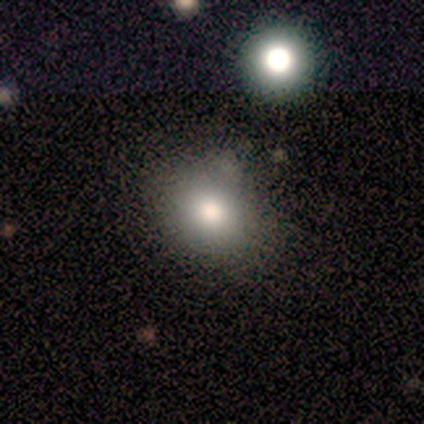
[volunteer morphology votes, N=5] smooth-or-featured: smooth: 80% | featured or disk: 20% | star or artifact: 0%
  how-rounded: round: 75% | in between: 25% | cigar-shaped: 0%
  merging: none: 100% | minor disturbance: 0% | major disturbance: 0% | merger: 0%